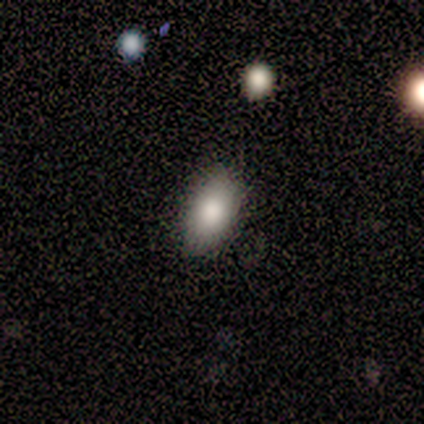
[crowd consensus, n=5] Smooth or featured? smooth (80%)
How rounded? in between (100%)
Merging? none (100%)